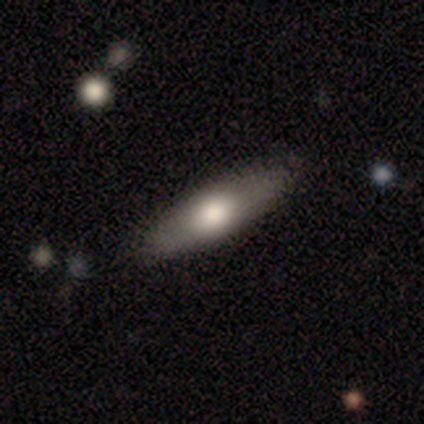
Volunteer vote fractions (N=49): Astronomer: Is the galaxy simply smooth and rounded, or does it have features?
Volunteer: smooth — 69%.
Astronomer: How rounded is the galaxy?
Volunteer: cigar-shaped — 59% (runner-up: in between, 38%).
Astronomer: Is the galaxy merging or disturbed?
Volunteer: none — 87%.